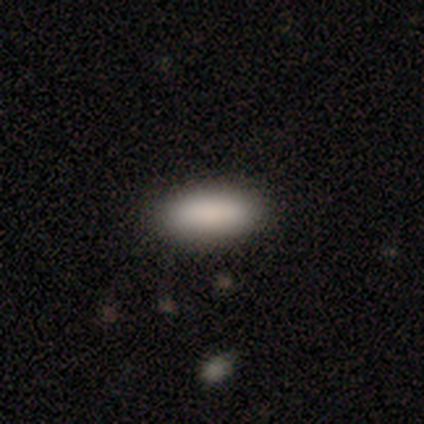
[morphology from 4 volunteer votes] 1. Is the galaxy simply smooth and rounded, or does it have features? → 75% smooth, 25% star or artifact, 0% featured or disk.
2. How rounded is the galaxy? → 100% in between, 0% round, 0% cigar-shaped.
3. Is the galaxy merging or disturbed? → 100% none, 0% minor disturbance, 0% major disturbance, 0% merger.